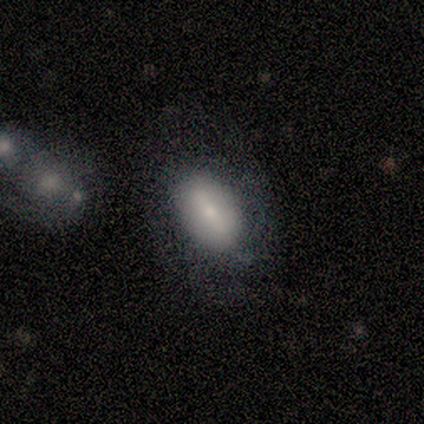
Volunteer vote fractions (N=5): A smooth galaxy with no disk features (60%) that is in between round and cigar-shaped (100%). Merging: none (100%).